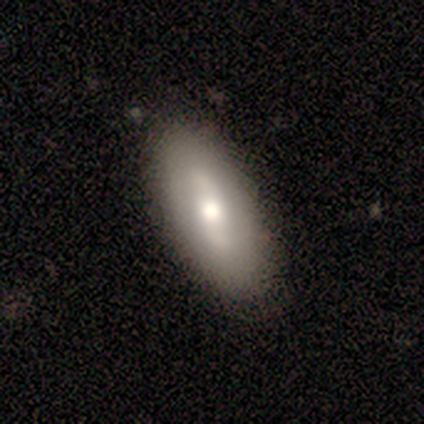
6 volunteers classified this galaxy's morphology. Q: Smooth or featured?
A: featured or disk (67%); runner-up: smooth (33%)
Q: Edge-on disk?
A: no (75%); runner-up: yes (25%)
Q: Bar?
A: strong (67%); runner-up: weak (33%)
Q: Spiral arms?
A: no (100%)
Q: Bulge size?
A: moderate (67%); runner-up: small (33%)
Q: Merging?
A: none (100%)